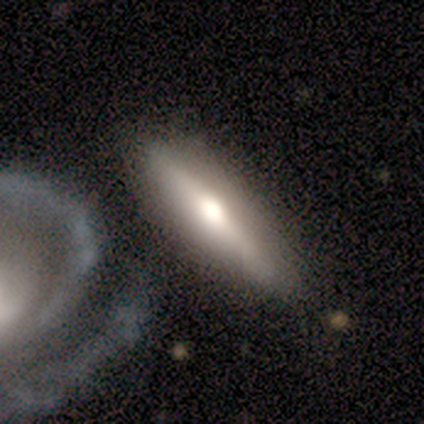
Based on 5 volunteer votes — smooth_or_featured: featured or disk (p=0.60) [alt: smooth p=0.40]
disk_edge_on: yes (p=0.67) [alt: no p=0.33]
edge_on_bulge: rounded (p=1.00)
merging: none (p=0.80) [alt: minor disturbance p=0.20]